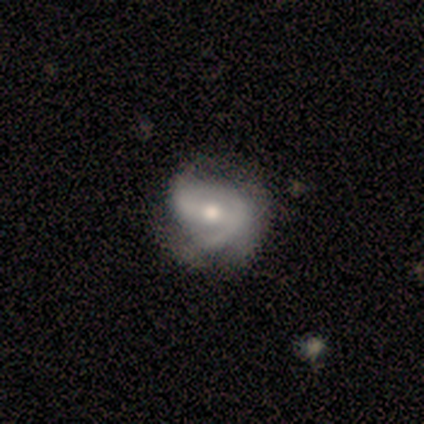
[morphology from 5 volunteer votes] smooth-or-featured: smooth: 40% (tied) | featured or disk: 40% (tied) | star or artifact: 20%
  how-rounded: round: 50% (tied) | in between: 50% (tied) | cigar-shaped: 0%
  merging: none: 50% (tied) | minor disturbance: 50% (tied) | major disturbance: 0% | merger: 0%